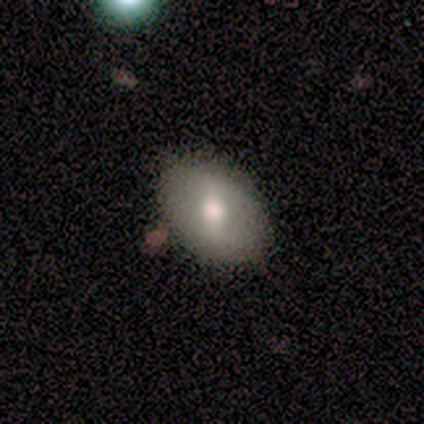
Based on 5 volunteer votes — Volunteers were most divided on "smooth or featured": smooth: 60%, featured or disk: 40%, star or artifact: 0%. More confident: merging — none (100%); how rounded — in between (67%).